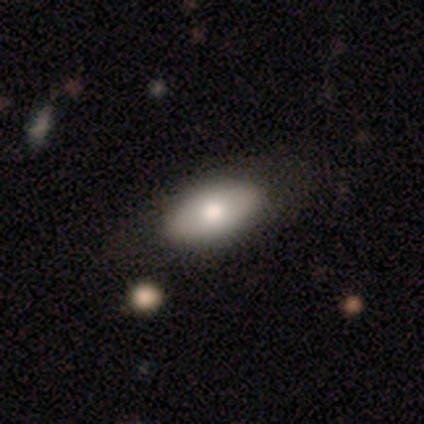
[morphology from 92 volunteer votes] Volunteers were most divided on "smooth or featured": smooth: 66%, featured or disk: 27%, star or artifact: 7%. More confident: how rounded — in between (97%); merging — none (87%).